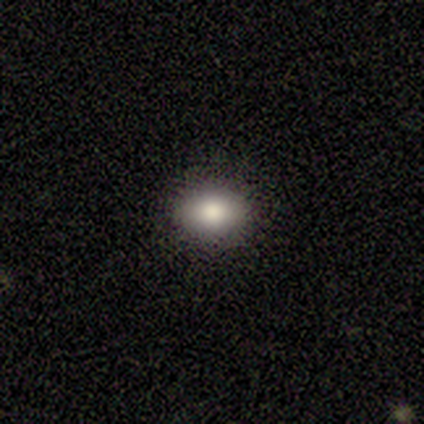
Morphology: type=smooth (90%); roundness=in between (63%); merging=none (97%).